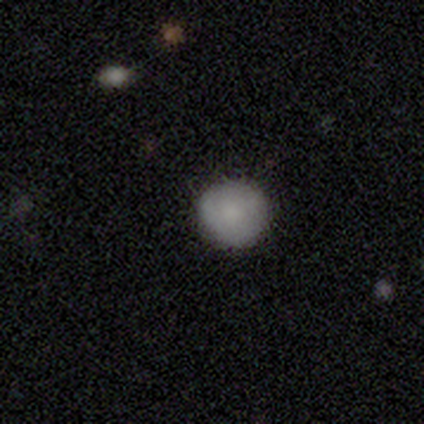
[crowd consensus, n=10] smooth_or_featured: smooth (p=0.80) [alt: featured or disk p=0.20]
how_rounded: round (p=0.62) [alt: in between p=0.38]
merging: none (p=1.00)